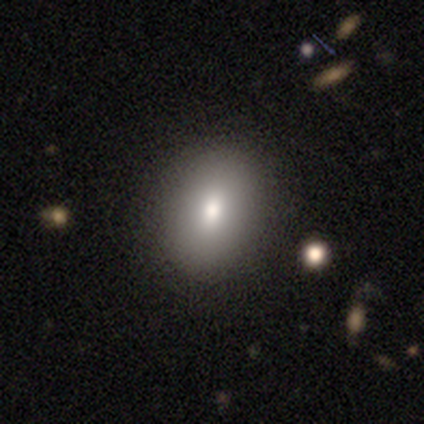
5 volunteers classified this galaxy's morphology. Q: Smooth or featured?
A: smooth (80%); runner-up: featured or disk (20%)
Q: How rounded?
A: in between (75%); runner-up: round (25%)
Q: Merging?
A: none (100%)